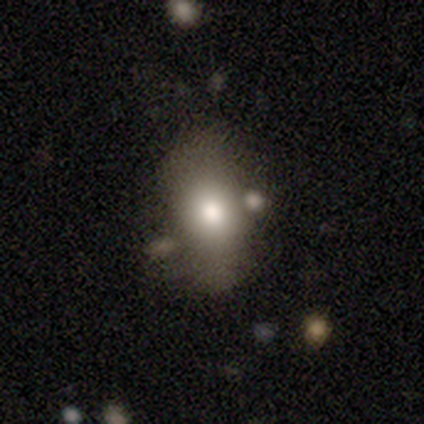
Smooth or featured?
  - smooth: 78% *
  - featured or disk: 12%
  - star or artifact: 10%
How rounded?
  - in between: 72% *
  - round: 24%
  - cigar-shaped: 4%
Merging?
  - none: 51% *
  - minor disturbance: 29%
  - merger: 12%
  - major disturbance: 9%